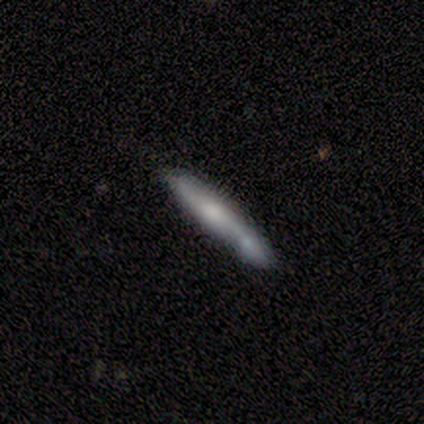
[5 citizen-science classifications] A smooth galaxy with no disk features (60%) that is cigar-shaped (100%).

Vote fractions:
- Smooth or featured? smooth: 60% / featured or disk: 40% / star or artifact: 0%
- How rounded? cigar-shaped: 100% / round: 0% / in between: 0%
- Merging? none: 40% (tied) / merger: 40% (tied) / minor disturbance: 20% / major disturbance: 0%